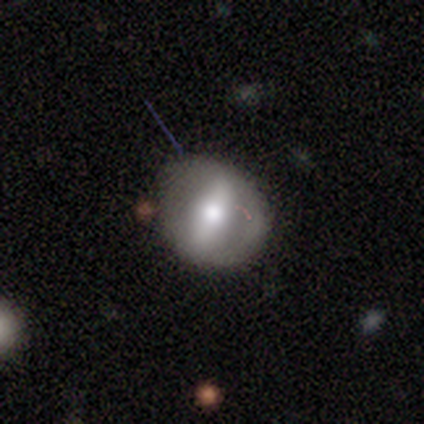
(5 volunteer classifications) Smooth or featured?
  - featured or disk: 80% *
  - smooth: 20%
  - star or artifact: 0%
Edge-on disk?
  - yes: 50% * (tied)
  - no: 50% * (tied)
Edge-on bulge?
  - rounded: 100% *
  - boxy: 0%
  - none: 0%
Merging?
  - none: 80% *
  - minor disturbance: 20%
  - major disturbance: 0%
  - merger: 0%